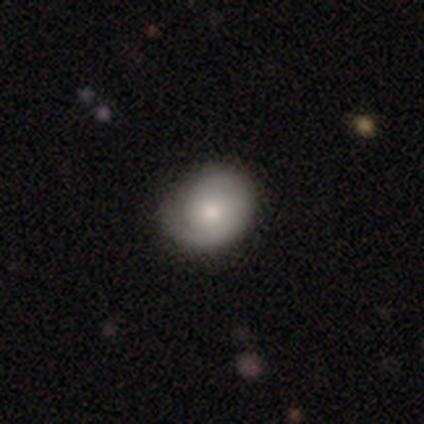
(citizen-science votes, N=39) This appears to be a featured or disk galaxy (56%) with no bar (90%), 1 (55%) tight (70%) spiral arms (95%) and a moderate central bulge (71%). Merging: none (49%).